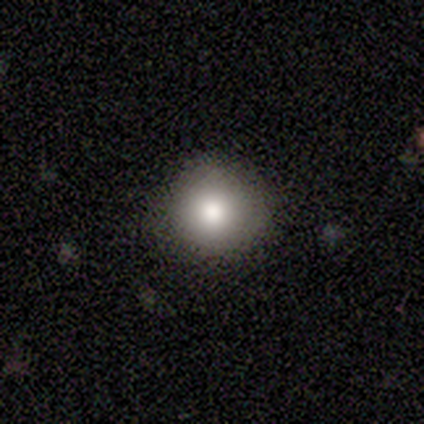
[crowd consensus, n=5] Volunteers were most divided on "smooth or featured": smooth: 80%, featured or disk: 20%, star or artifact: 0%. More confident: how rounded — round (100%); merging — none (80%).